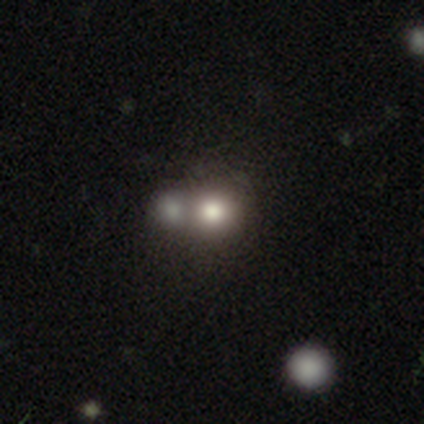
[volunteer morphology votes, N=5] Smooth or featured?
  - smooth: 80% *
  - featured or disk: 20%
  - star or artifact: 0%
How rounded?
  - round: 75% *
  - in between: 25%
  - cigar-shaped: 0%
Merging?
  - none: 80% *
  - merger: 20%
  - minor disturbance: 0%
  - major disturbance: 0%